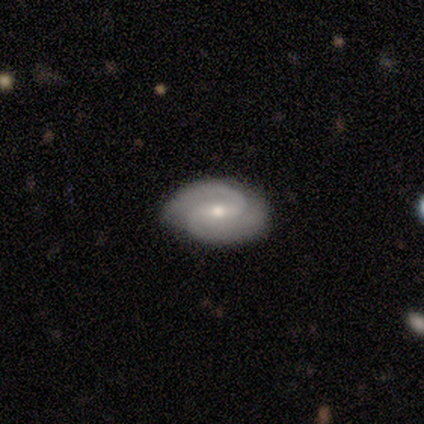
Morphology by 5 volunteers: smooth-or-featured: featured or disk: 80% | smooth: 20% | star or artifact: 0%
  disk-edge-on: no: 100% | yes: 0%
    bar: strong: 50% (tied) | weak: 50% (tied) | no: 0%
    has-spiral-arms: yes: 100% | no: 0%
      spiral-winding: tight: 50% (tied) | medium: 50% (tied) | loose: 0%
      spiral-arm-count: 2: 100% | 1: 0% | 3: 0% | 4: 0% | more than 4: 0% | can't tell: 0%
    bulge-size: small: 75% | moderate: 25% | dominant: 0% | large: 0% | none: 0%
  merging: none: 80% | minor disturbance: 20% | major disturbance: 0% | merger: 0%